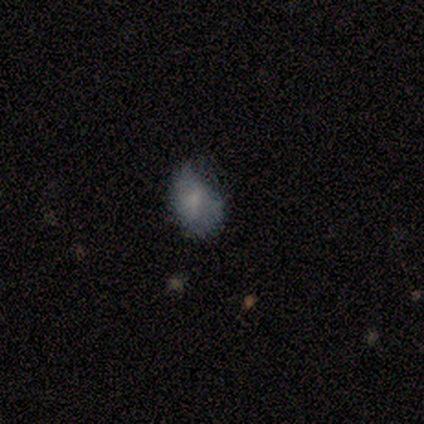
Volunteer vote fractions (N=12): Morphology: type=smooth (83%); roundness=in between (60%); merging=none (75%).